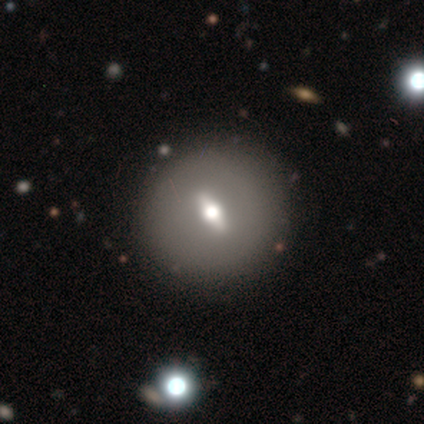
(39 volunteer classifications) smooth-or-featured: featured or disk: 64% | smooth: 21% | star or artifact: 15%
  disk-edge-on: no: 56% | yes: 44%
    bar: weak: 64% | strong: 29% | no: 7%
    has-spiral-arms: no: 100% | yes: 0%
    bulge-size: moderate: 86% | small: 14% | dominant: 0% | large: 0% | none: 0%
  merging: none: 79% | minor disturbance: 21% | major disturbance: 0% | merger: 0%